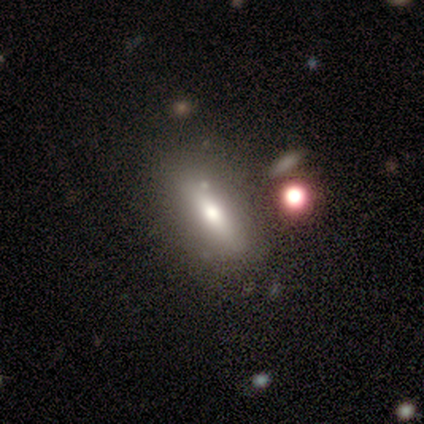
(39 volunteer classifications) Smooth or featured: smooth — 54% (featured or disk — 23%)
How rounded: in between — 52% (cigar-shaped — 48%)
Merging: none — 73% (minor disturbance — 17%)